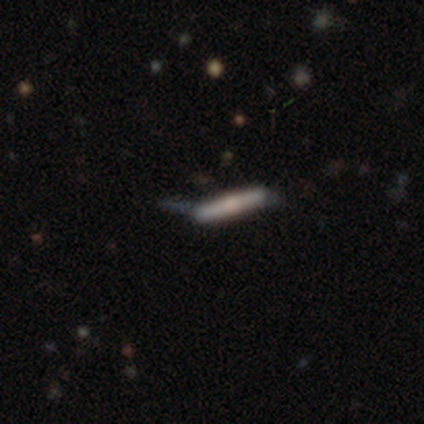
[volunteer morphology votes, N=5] featured or disk 80%, star or artifact 20%, smooth 0%. Down the decision tree: edge-on disk — yes (75%); edge-on bulge — rounded (100%); merging — none (100%).